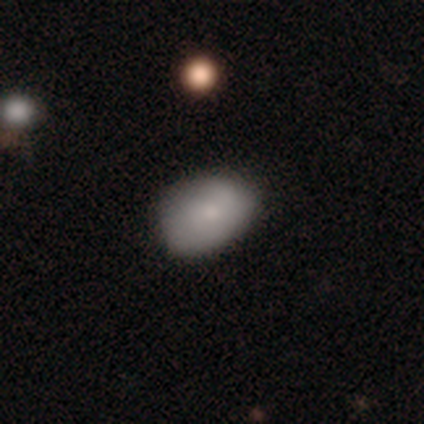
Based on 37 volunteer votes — smooth-or-featured: smooth: 86% | star or artifact: 8% | featured or disk: 5%
  how-rounded: in between: 75% | round: 25% | cigar-shaped: 0%
  merging: none: 79% | minor disturbance: 18% | major disturbance: 3% | merger: 0%